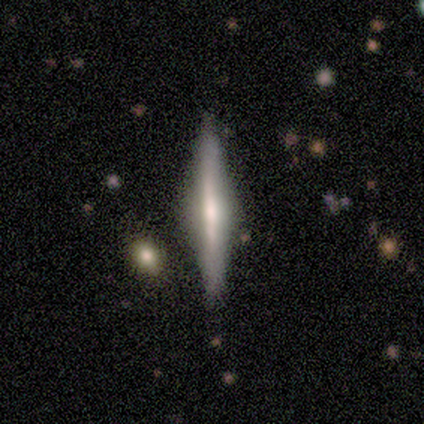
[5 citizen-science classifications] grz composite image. It shows a featured or disk galaxy (80%) viewed edge-on (100%) with a boxy central bulge (50%, tied with rounded). Merging: none (80%).